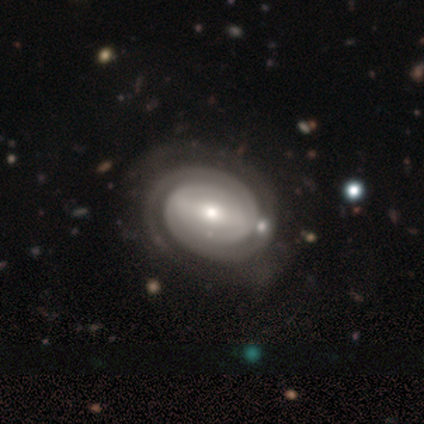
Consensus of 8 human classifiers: A featured or disk galaxy (88%) with no bar (57%), 2 (71%) tight (100%) spiral arms (100%) and a small central bulge (57%). Merging: none (86%).